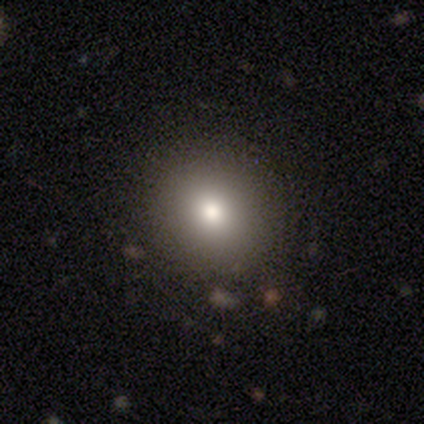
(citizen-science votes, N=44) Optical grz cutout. It shows a smooth galaxy with no disk features (82%) that is round (89%). Merging: none (93%).